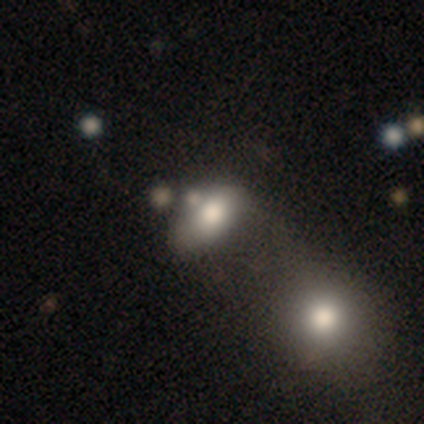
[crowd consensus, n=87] Q: Smooth or featured?
A: smooth (74%); runner-up: featured or disk (15%)
Q: How rounded?
A: in between (83%); runner-up: round (9%)
Q: Merging?
A: merger (47%); runner-up: minor disturbance (22%)